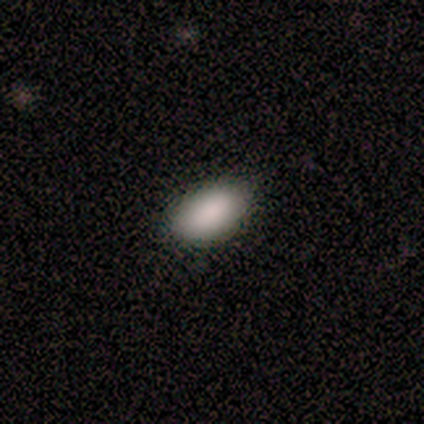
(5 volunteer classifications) Overall: smooth (80%). How rounded: in between (100%). Merging: none (75%).